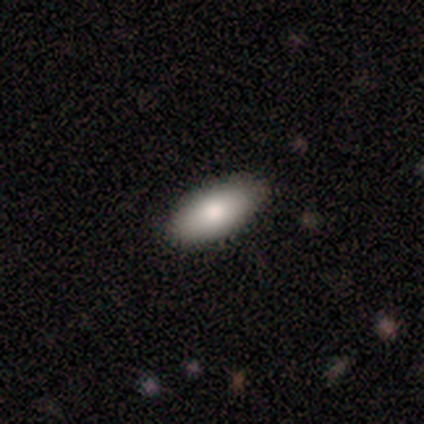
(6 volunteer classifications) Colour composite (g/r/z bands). It shows a smooth galaxy with no disk features (67%) that is in between round and cigar-shaped (100%). Merging: none (100%).